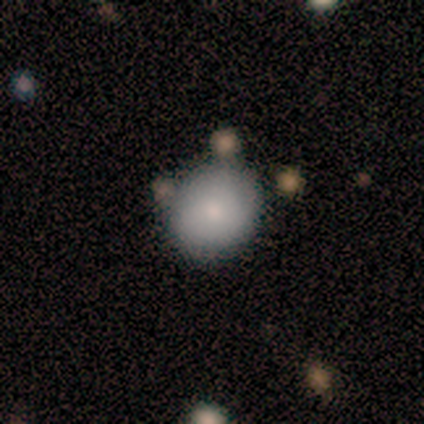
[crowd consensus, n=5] Smooth or featured: smooth — 100%
How rounded: round — 80% (in between — 20%)
Merging: none — 100%